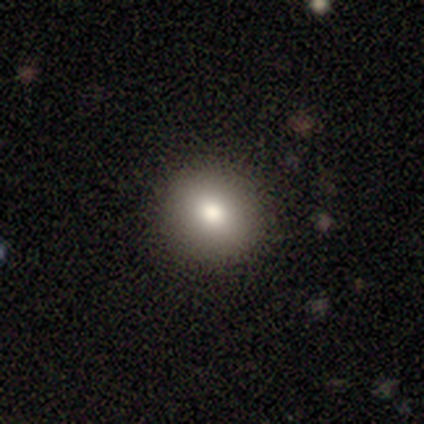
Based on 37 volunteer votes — Smooth or featured? 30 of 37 (81%) said smooth. How rounded? 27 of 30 (90%) said round. Merging? 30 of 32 (94%) said none.